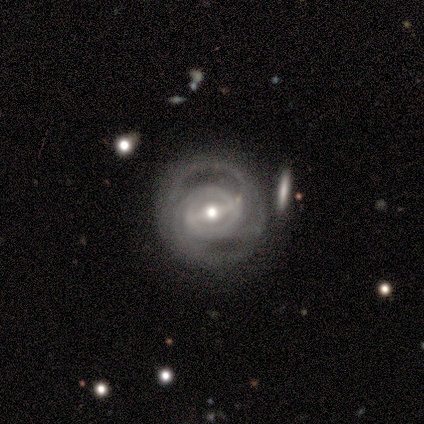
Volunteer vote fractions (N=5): Overall: featured or disk (100%). Edge-on disk: no (100%). Bar: strong (80%). Spiral arms: yes (100%). Spiral arm count: can't tell (60%; 2 40%). Spiral winding: tight (60%; medium 40%). Bulge size: moderate (100%). Merging: none (60%; minor disturbance 40%).